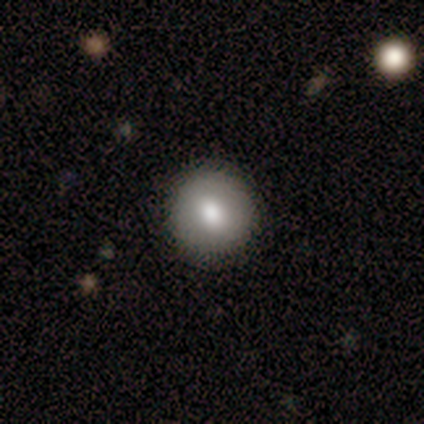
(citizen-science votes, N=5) This is clearly a smooth galaxy (80%). How rounded: likely round (75%). Merging: clearly none (100%).